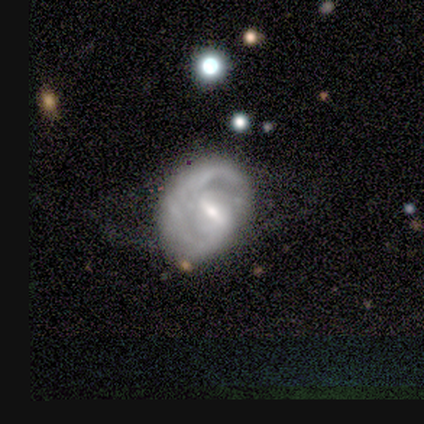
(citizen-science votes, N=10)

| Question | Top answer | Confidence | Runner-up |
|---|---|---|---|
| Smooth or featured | featured or disk | 90% | smooth (10%) |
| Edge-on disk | no | 100% | — |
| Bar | weak | 78% | no (22%) |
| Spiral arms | yes | 100% | — |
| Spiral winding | medium | 67% | tight (22%) |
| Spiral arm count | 2 | 67% | 1 (33%) |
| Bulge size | small | 78% | moderate (11%) |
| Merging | none | 70% | merger (20%) |